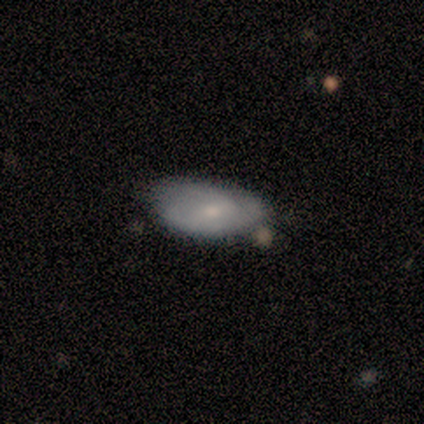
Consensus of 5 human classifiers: Volunteers were most divided on "merging": none: 60%, minor disturbance: 40%, major disturbance: 0%, merger: 0%. More confident: edge-on disk — no (100%); smooth or featured — featured or disk (80%); bar — weak (75%); spiral arms — yes (75%); spiral winding — tight (67%); spiral arm count — 2 (67%); bulge size — small (50%).